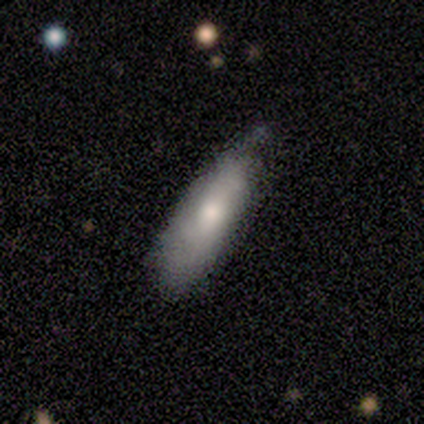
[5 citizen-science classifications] Overall: smooth (100%). How rounded: in between (60%; cigar-shaped 40%). Merging: none (60%; minor disturbance 40%).